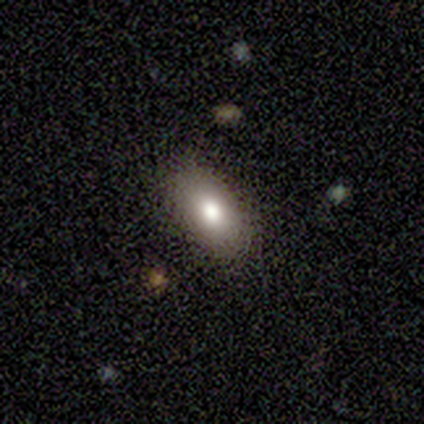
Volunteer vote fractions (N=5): Smooth or featured?
  - smooth: 80% *
  - featured or disk: 20%
  - star or artifact: 0%
How rounded?
  - in between: 100% *
  - round: 0%
  - cigar-shaped: 0%
Merging?
  - none: 100% *
  - minor disturbance: 0%
  - major disturbance: 0%
  - merger: 0%